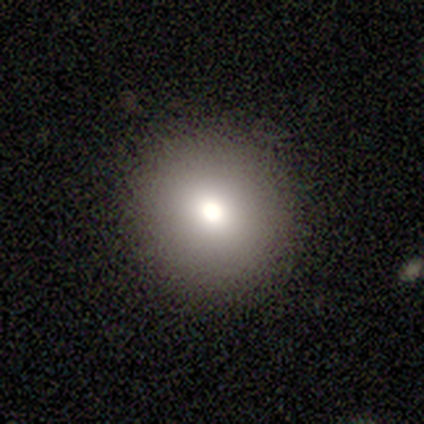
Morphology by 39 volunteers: This appears to be a smooth galaxy with no disk features (85%) that is round (94%). Merging: none (91%).